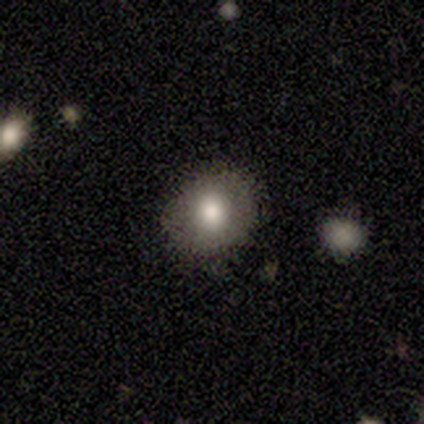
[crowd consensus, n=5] Overall: smooth (60%; star or artifact 40%). How rounded: round (100%). Merging: none (67%; minor disturbance 33%).